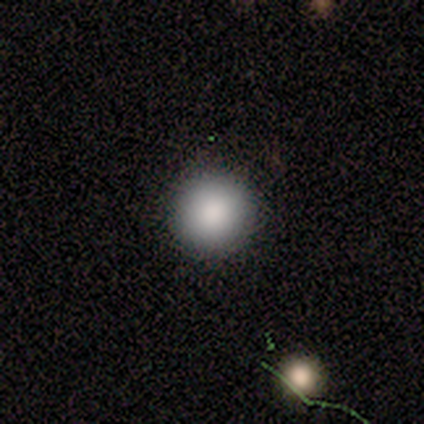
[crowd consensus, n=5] Smooth or featured?
  - smooth: 80% *
  - star or artifact: 20%
  - featured or disk: 0%
How rounded?
  - round: 100% *
  - in between: 0%
  - cigar-shaped: 0%
Merging?
  - none: 100% *
  - minor disturbance: 0%
  - major disturbance: 0%
  - merger: 0%